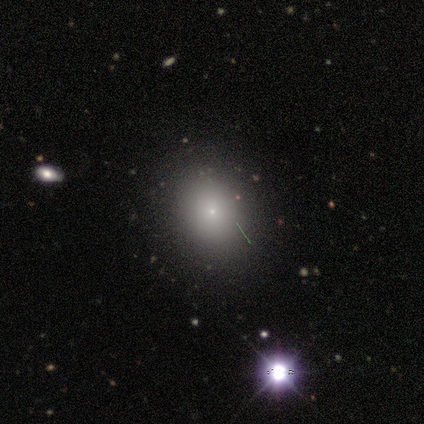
smooth_or_featured: smooth (p=0.55) [alt: featured or disk p=0.27]
how_rounded: round (p=0.67) [alt: in between p=0.33]
merging: none (p=0.78) [alt: minor disturbance p=0.22]